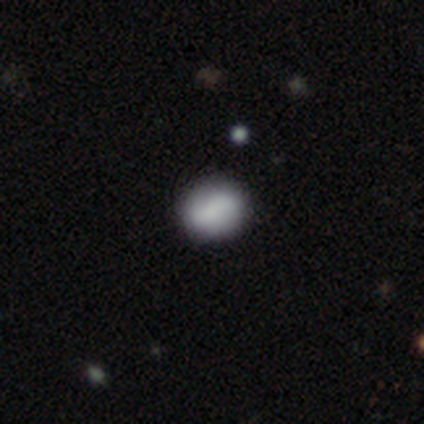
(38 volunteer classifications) Morphology: type=smooth (79%); roundness=round (77%); merging=none (83%).